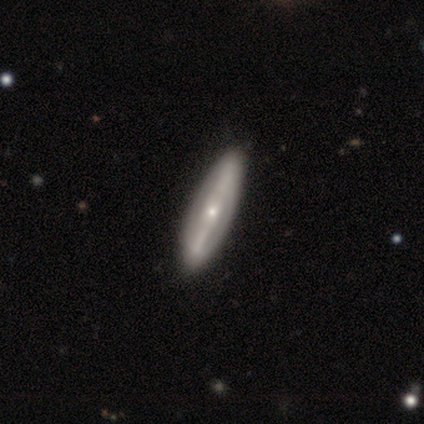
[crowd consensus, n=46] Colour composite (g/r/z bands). It shows a featured or disk galaxy (85%) with a strong bar (48%), no spiral arms (59%) and a small central bulge (70%). Merging: none (86%).